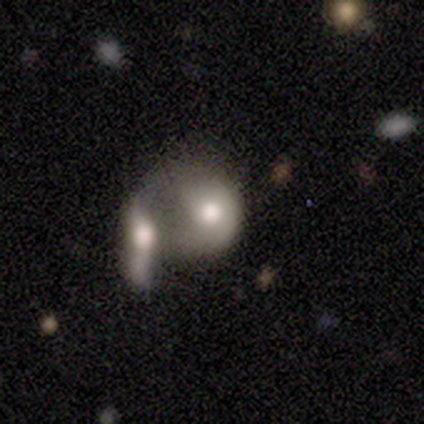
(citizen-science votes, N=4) smooth_or_featured: smooth (p=0.75) [alt: star or artifact p=0.25]
how_rounded: round (p=0.67) [alt: in between p=0.33]
merging: merger (p=0.67) [alt: minor disturbance p=0.33]